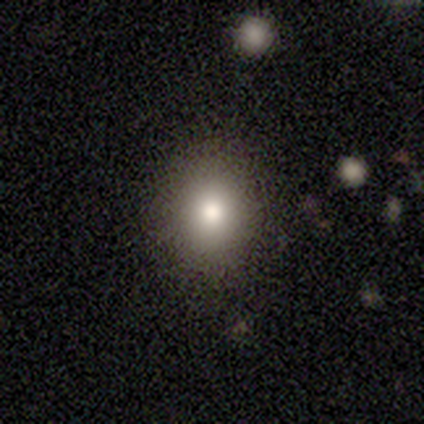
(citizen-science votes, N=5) Morphology: type=smooth (60%); roundness=in between (67%); merging=none (80%).